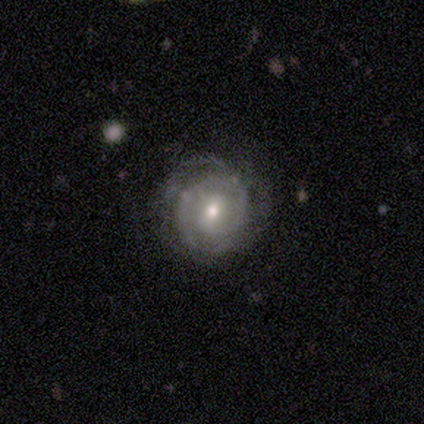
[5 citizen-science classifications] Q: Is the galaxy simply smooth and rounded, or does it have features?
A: featured or disk — 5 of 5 (100%).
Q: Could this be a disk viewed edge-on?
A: no — 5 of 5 (100%).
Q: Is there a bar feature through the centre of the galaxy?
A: weak — 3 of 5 (60%).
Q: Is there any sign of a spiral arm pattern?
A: yes — 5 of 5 (100%).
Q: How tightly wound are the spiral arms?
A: tight — 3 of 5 (60%).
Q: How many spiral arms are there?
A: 1 — 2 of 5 (40%, tied with 2).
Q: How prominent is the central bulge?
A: small — 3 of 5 (60%).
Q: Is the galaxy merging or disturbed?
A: none — 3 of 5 (60%).